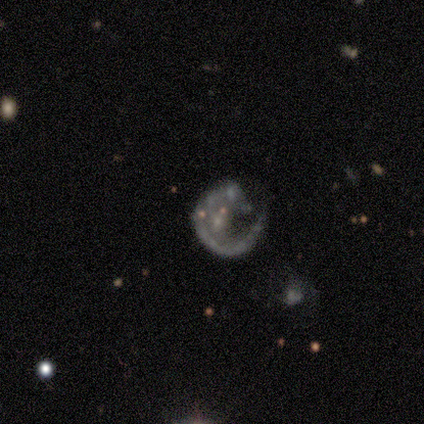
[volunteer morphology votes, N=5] Smooth or featured?
  - featured or disk: 100% *
  - smooth: 0%
  - star or artifact: 0%
Edge-on disk?
  - no: 100% *
  - yes: 0%
Bar?
  - no: 80% *
  - weak: 20%
  - strong: 0%
Spiral arms?
  - yes: 60% *
  - no: 40%
Spiral winding?
  - medium: 67% *
  - loose: 33%
  - tight: 0%
Spiral arm count?
  - 1: 67% *
  - can't tell: 33%
  - 2: 0%
  - 3: 0%
  - 4: 0%
  - more than 4: 0%
Bulge size?
  - small: 40% * (tied)
  - none: 40% * (tied)
  - moderate: 20%
  - dominant: 0%
  - large: 0%
Merging?
  - major disturbance: 80% *
  - minor disturbance: 20%
  - none: 0%
  - merger: 0%